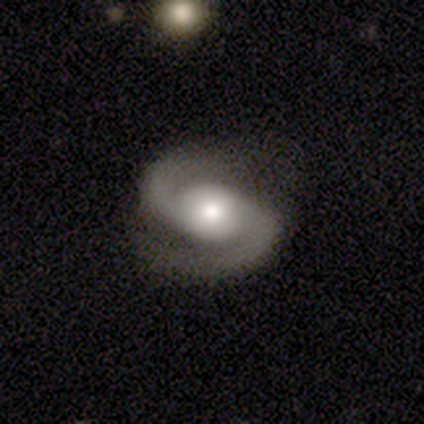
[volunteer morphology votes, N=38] This is clearly a featured or disk galaxy (92%). It is clearly not viewed edge-on (97%). Bar: possibly no (50%). Spiral arm pattern: clearly yes (97%). Spiral arm count: clearly 2 (100%). Spiral winding: likely medium (76%). Central bulge: possibly moderate (47%). Merging: likely none (73%).